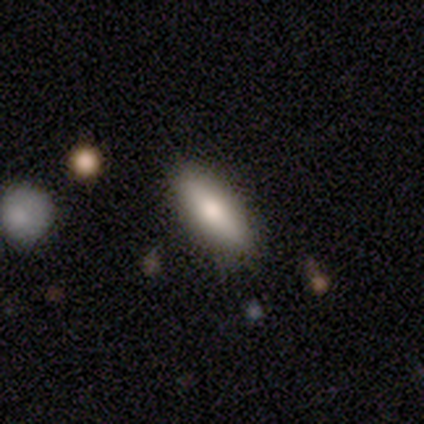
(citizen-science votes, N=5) Morphology: type=smooth (80%); roundness=in between (100%); merging=none (100%).